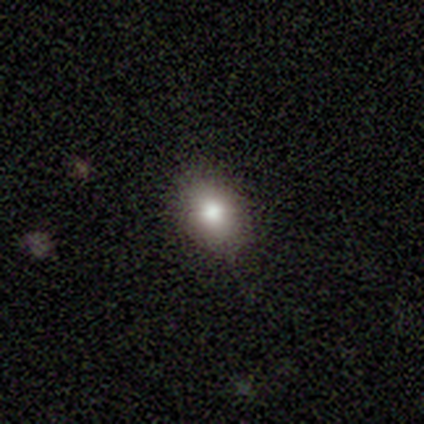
A smooth galaxy with no disk features (100%) that is round (50%, tied with in between).

Vote fractions:
- Smooth or featured? smooth: 100% / featured or disk: 0% / star or artifact: 0%
- How rounded? round: 50% (tied) / in between: 50% (tied) / cigar-shaped: 0%
- Merging? none: 100% / minor disturbance: 0% / major disturbance: 0% / merger: 0%